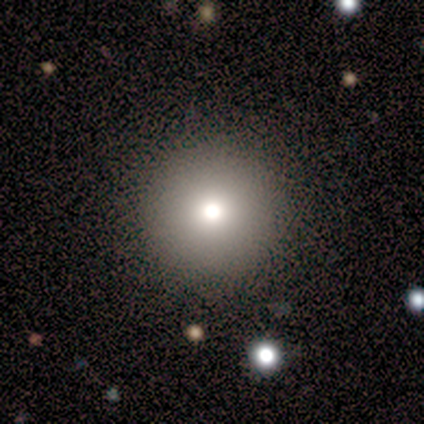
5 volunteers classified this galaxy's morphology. smooth_or_featured: smooth (p=0.80) [alt: star or artifact p=0.20]
how_rounded: round (p=1.00)
merging: none (p=1.00)